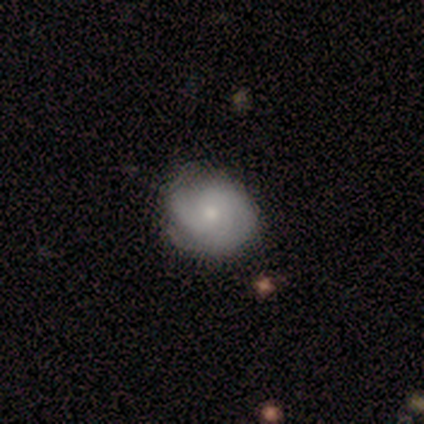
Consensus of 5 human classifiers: Smooth or featured? 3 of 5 (60%) said featured or disk. Edge-on disk? 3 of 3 (100%) said no. Bar? 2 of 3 (67%) said weak. Spiral arms? 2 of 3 (67%) said yes. Spiral winding? 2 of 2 (100%) said medium. Spiral arm count? 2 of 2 (100%) said 2. Bulge size? 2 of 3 (67%) said small. Merging? 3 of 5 (60%) said none.